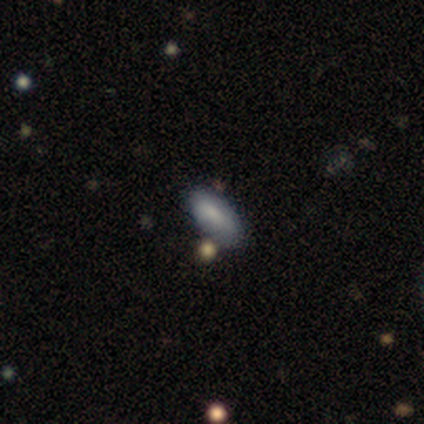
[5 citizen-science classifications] smooth 40% (tied), star or artifact 40% (tied), featured or disk 20%. Down the decision tree: how rounded — in between (100%); merging — none (33%, tied with major disturbance and merger).